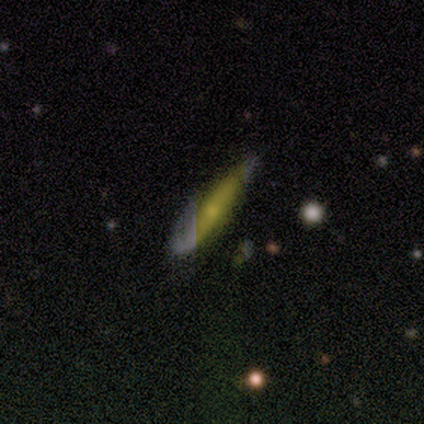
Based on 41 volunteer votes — smooth 56%, featured or disk 39%, star or artifact 5%. Down the decision tree: how rounded — cigar-shaped (87%); merging — none (74%).